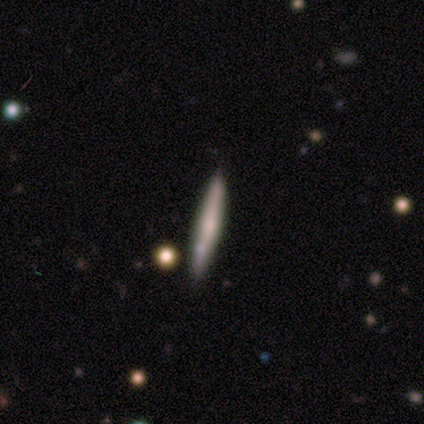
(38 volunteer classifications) smooth-or-featured: smooth: 50% | featured or disk: 45% | star or artifact: 5%
  how-rounded: cigar-shaped: 100% | round: 0% | in between: 0%
  merging: none: 89% | minor disturbance: 11% | major disturbance: 0% | merger: 0%